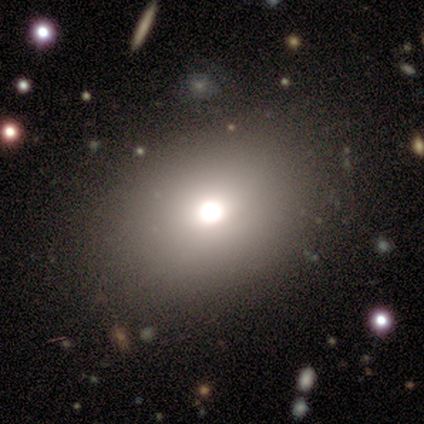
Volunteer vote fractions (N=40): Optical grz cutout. It shows a smooth galaxy with no disk features (68%) that is in between round and cigar-shaped (63%). Merging: none (86%).